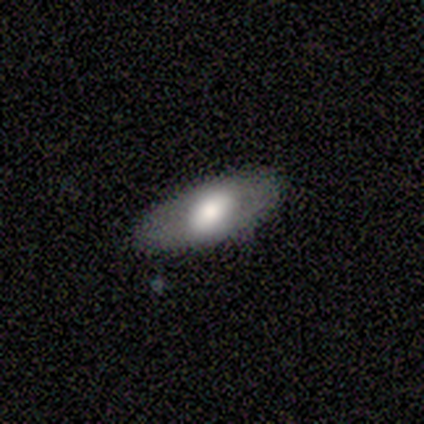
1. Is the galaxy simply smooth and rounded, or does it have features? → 54% featured or disk, 46% smooth, 0% star or artifact.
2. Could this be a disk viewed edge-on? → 91% no, 9% yes.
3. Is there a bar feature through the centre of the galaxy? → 45% no, 30% weak, 25% strong.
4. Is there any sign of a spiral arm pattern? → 85% no, 15% yes.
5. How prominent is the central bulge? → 45% large, 40% moderate, 10% dominant, 5% small, 0% none.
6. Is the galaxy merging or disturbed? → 71% none, 27% minor disturbance, 2% major disturbance, 0% merger.